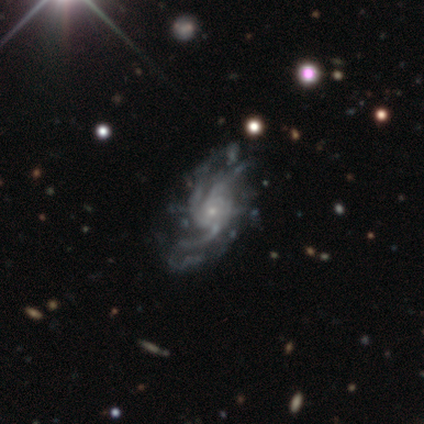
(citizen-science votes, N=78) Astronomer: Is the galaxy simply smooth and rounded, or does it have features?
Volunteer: featured or disk — 97%.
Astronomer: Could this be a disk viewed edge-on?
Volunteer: no — 99%.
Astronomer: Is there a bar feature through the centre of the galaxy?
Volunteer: no — 88%.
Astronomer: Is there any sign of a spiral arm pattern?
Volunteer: yes — 100%.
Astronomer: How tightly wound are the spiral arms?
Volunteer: medium — 37% (runner-up: tight, 35%).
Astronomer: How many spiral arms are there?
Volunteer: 3 — 51%.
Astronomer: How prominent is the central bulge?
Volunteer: small — 89%.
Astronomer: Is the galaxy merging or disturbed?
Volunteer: none — 28% (runner-up: minor disturbance, 18%).